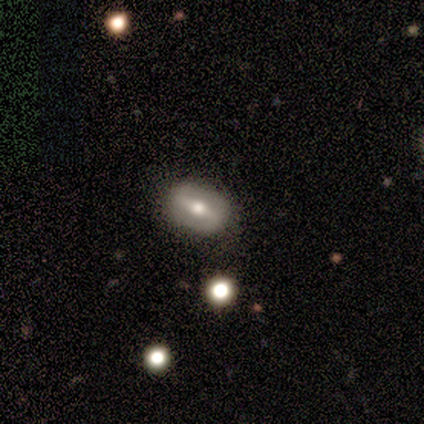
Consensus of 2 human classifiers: Morphology: type=smooth (50%, tied with featured or disk); roundness=in between (100%); merging=none (50%, tied with minor disturbance).